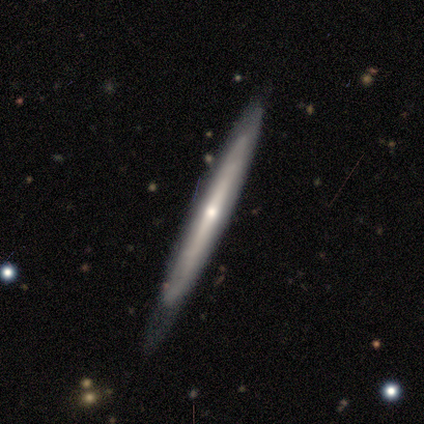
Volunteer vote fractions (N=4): Smooth or featured?
  - featured or disk: 75% *
  - smooth: 25%
  - star or artifact: 0%
Edge-on disk?
  - yes: 67% *
  - no: 33%
Edge-on bulge?
  - none: 50% * (tied)
  - rounded: 50% * (tied)
  - boxy: 0%
Merging?
  - none: 75% *
  - major disturbance: 25%
  - minor disturbance: 0%
  - merger: 0%